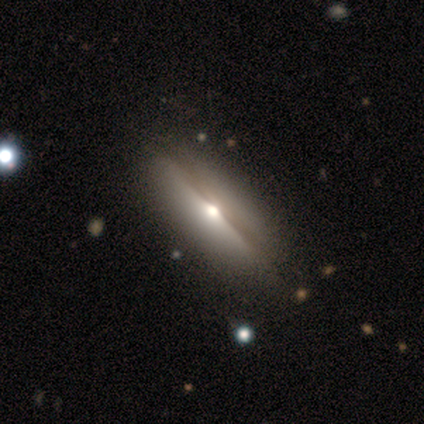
Smooth or featured? smooth (80%)
How rounded? in between (100%)
Merging? none (100%)